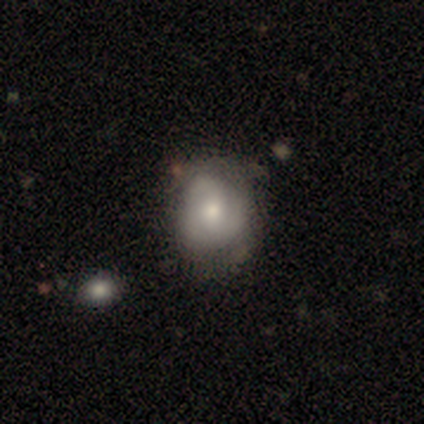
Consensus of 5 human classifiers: A featured or disk galaxy (60%) with no bar (100%), no spiral arms (67%) and a moderate central bulge (67%). Merging: none (80%).